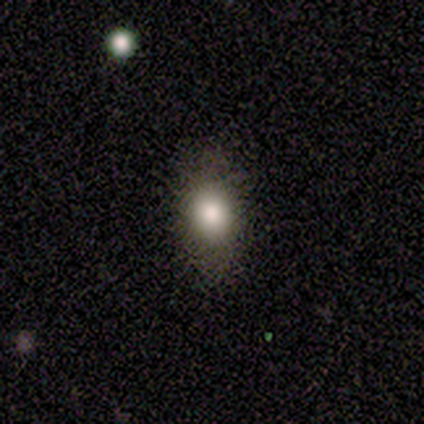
Morphology: type=smooth (80%); roundness=in between (75%); merging=none (100%).